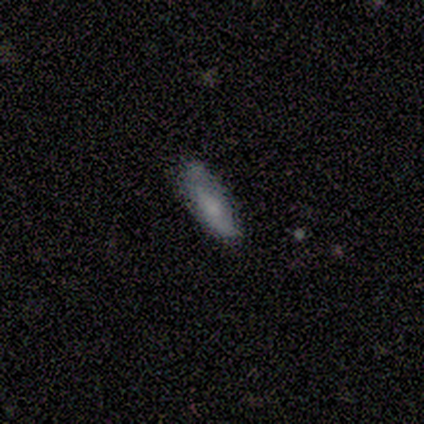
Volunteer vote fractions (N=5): Overall: smooth (60%; featured or disk 40%). How rounded: in between (67%; cigar-shaped 33%). Merging: none (100%).